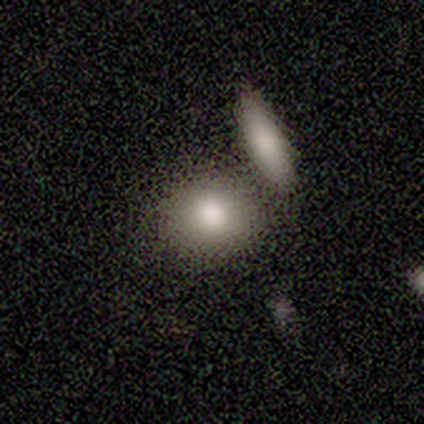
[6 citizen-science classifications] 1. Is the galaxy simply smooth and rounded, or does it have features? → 83% smooth, 17% star or artifact, 0% featured or disk.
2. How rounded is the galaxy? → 60% round, 40% in between, 0% cigar-shaped.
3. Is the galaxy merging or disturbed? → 40% none (tied), 40% merger (tied), 20% minor disturbance, 0% major disturbance.